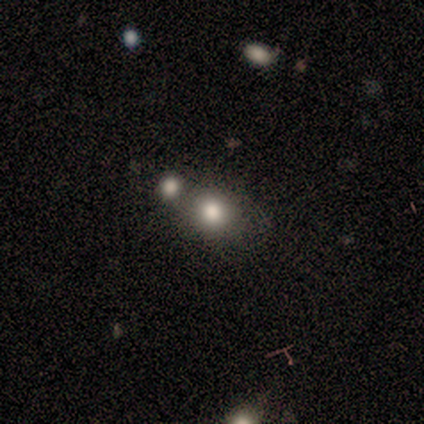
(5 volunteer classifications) Smooth or featured? smooth (80%)
How rounded? round (75%)
Merging? none (50%, tied with merger)